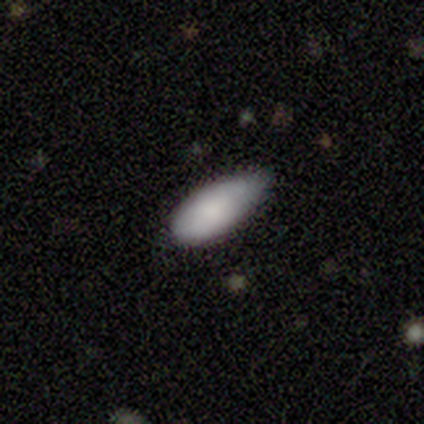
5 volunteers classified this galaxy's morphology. Smooth or featured? smooth (80%)
How rounded? in between (100%)
Merging? none (80%)